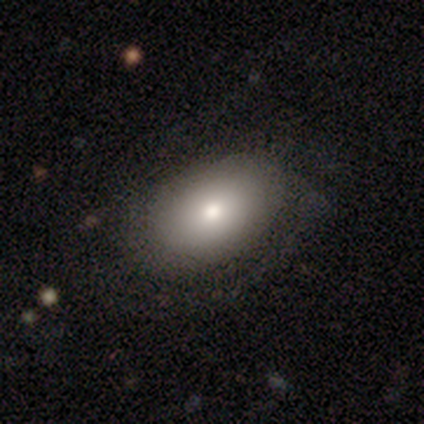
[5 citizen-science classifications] Volunteers were most divided on "smooth or featured": smooth: 60%, featured or disk: 40%, star or artifact: 0%. More confident: merging — none (100%); how rounded — in between (67%).